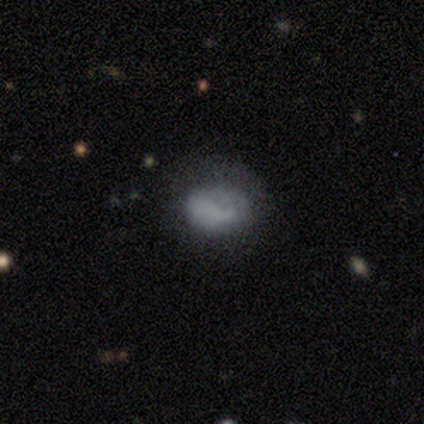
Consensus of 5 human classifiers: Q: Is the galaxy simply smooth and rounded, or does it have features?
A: smooth — 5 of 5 (100%).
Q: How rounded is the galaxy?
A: in between — 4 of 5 (80%).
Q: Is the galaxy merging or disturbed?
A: minor disturbance — 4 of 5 (80%).